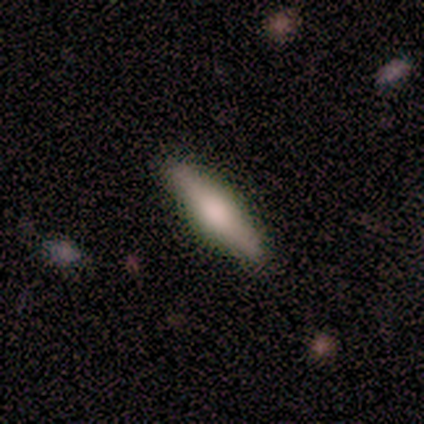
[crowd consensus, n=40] Volunteers were most divided on "smooth or featured": featured or disk: 52%, smooth: 45%, star or artifact: 2%. More confident: edge-on disk — yes (100%); merging — none (82%); edge-on bulge — rounded (71%).